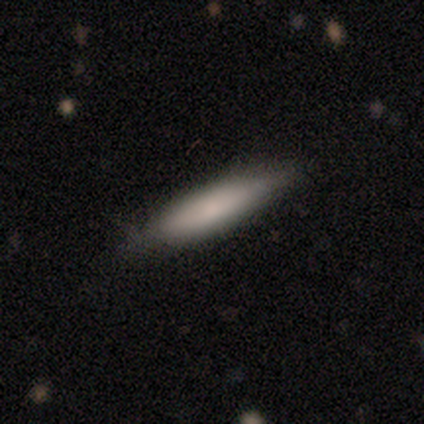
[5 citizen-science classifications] Morphology: type=smooth (60%); roundness=cigar-shaped (67%); merging=none (80%).